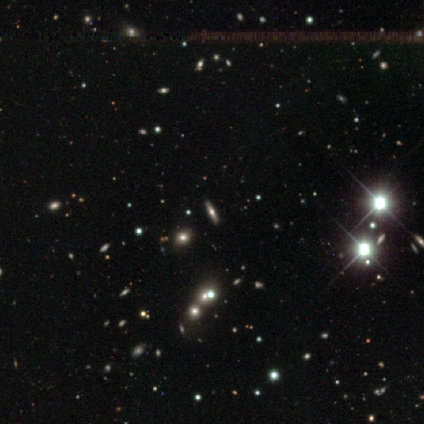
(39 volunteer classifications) A star or artifact, not a galaxy (51%).

Vote fractions:
- Smooth or featured? star or artifact: 51% / featured or disk: 41% / smooth: 8%